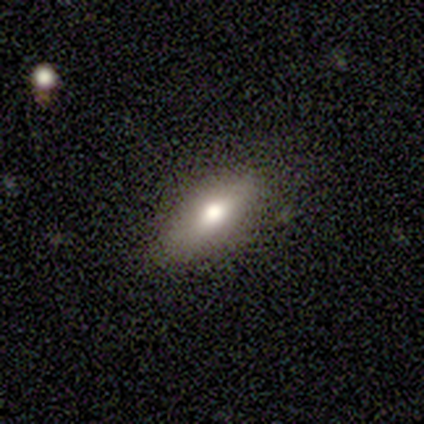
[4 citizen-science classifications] Smooth or featured: smooth — 75% (featured or disk — 25%)
How rounded: cigar-shaped — 67% (in between — 33%)
Merging: none — 75% (minor disturbance — 25%)